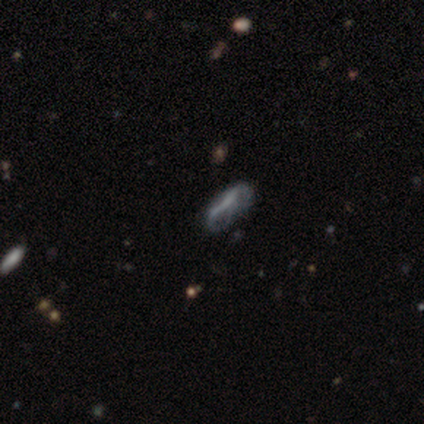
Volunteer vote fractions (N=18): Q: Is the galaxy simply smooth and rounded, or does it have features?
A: featured or disk — 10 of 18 (56%).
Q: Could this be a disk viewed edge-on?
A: no — 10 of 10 (100%).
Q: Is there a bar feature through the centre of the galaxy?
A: no — 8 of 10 (80%).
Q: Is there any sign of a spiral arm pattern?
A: no — 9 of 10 (90%).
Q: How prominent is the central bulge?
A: none — 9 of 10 (90%).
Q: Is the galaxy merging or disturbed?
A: major disturbance — 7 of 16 (44%).